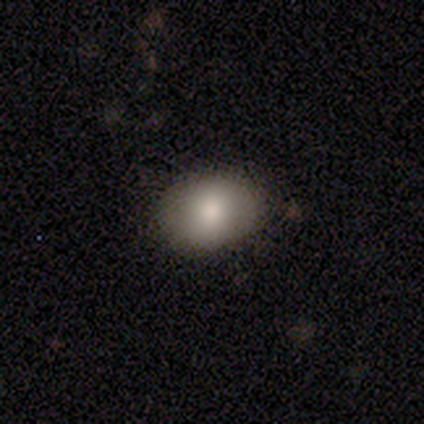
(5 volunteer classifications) Smooth or featured? 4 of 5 (80%) said smooth. How rounded? 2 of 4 (50%, tied with in between) said round. Merging? 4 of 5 (80%) said none.